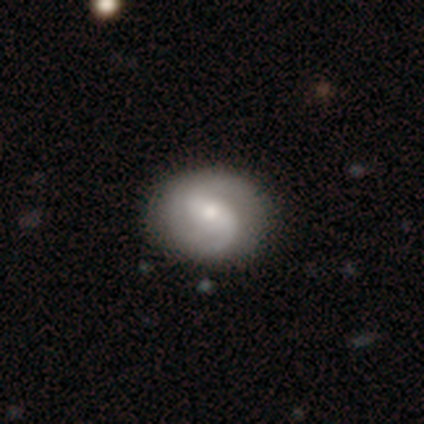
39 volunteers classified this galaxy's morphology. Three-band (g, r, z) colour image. It shows a featured or disk galaxy (85%) with no bar (42%), 2 (79%) medium (39%) spiral arms (100%) and a moderate central bulge (48%). Merging: none (64%).